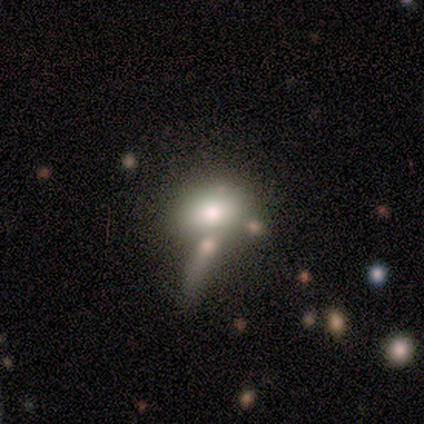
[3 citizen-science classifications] Volunteers were most divided on "how rounded": round: 67%, in between: 33%, cigar-shaped: 0%. More confident: smooth or featured — smooth (100%); merging — none (100%).